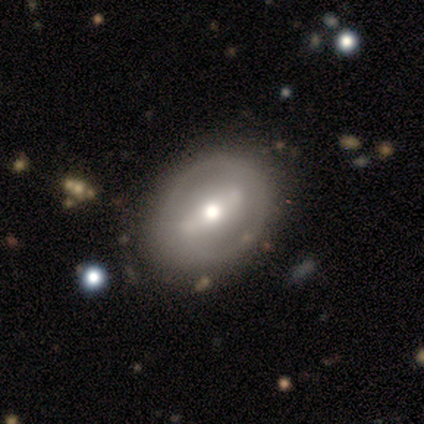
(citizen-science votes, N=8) Q: Smooth or featured?
A: featured or disk (62%); runner-up: star or artifact (25%)
Q: Edge-on disk?
A: no (60%); runner-up: yes (40%)
Q: Bar?
A: strong (67%); runner-up: no (33%)
Q: Spiral arms?
A: yes (67%); runner-up: no (33%)
Q: Spiral winding?
A: tight (50%); tied with: medium (50%)
Q: Spiral arm count?
A: 2 (50%); tied with: can't tell (50%)
Q: Bulge size?
A: moderate (100%)
Q: Merging?
A: none (83%); runner-up: minor disturbance (17%)